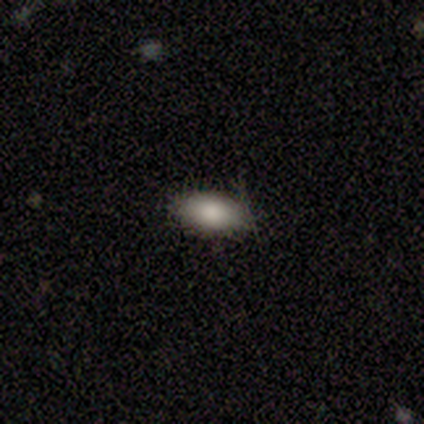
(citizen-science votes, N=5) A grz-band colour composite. It shows a smooth galaxy with no disk features (100%) that is in between round and cigar-shaped (100%). Merging: none (80%).